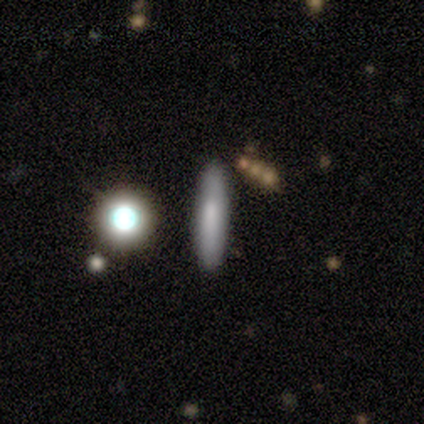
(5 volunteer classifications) Overall: smooth (60%; featured or disk 40%). How rounded: cigar-shaped (100%). Merging: none (40%, tied with major disturbance).